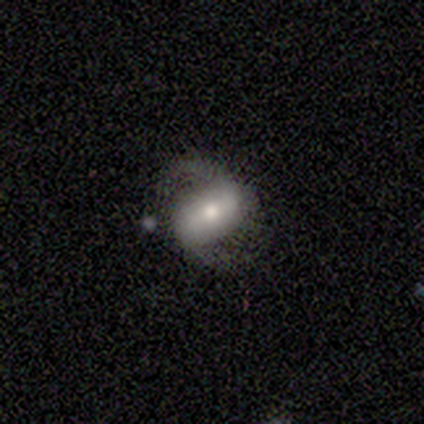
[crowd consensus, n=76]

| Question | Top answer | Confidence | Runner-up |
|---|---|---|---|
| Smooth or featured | featured or disk | 78% | smooth (20%) |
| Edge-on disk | no | 100% | — |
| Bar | strong | 56% | weak (27%) |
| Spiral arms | yes | 90% | no (10%) |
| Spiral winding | medium | 45% | loose (40%) |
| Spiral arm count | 2 | 92% | can't tell (8%) |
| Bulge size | moderate | 53% | small (22%) |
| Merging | none | 59% | minor disturbance (18%) |